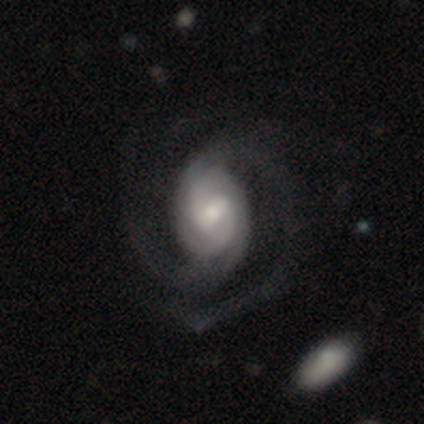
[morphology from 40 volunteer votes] This appears to be a featured or disk galaxy (92%) with a weak bar (59%), 2 (92%) tight (49%) spiral arms (100%) and a moderate central bulge (51%). Merging: none (33%).